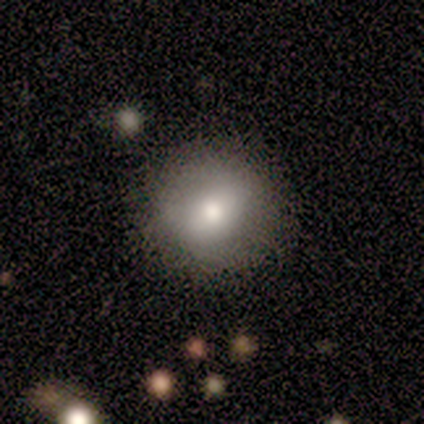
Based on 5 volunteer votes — smooth 40% (tied), featured or disk 40% (tied), star or artifact 20%. Down the decision tree: how rounded — round (100%); merging — none (75%).